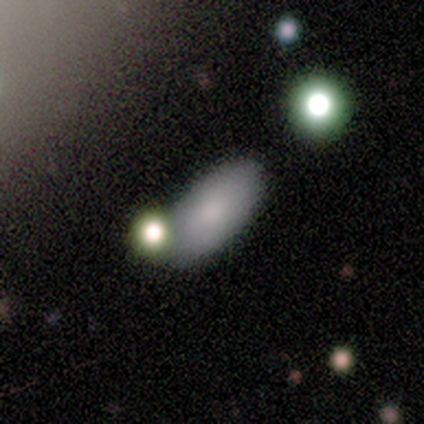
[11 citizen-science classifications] This is likely a smooth galaxy (73%). How rounded: clearly in between (88%). Merging: likely none (78%).